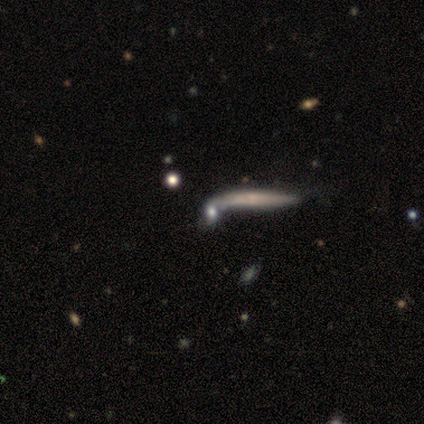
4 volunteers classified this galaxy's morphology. Smooth or featured?
  - featured or disk: 75% *
  - smooth: 25%
  - star or artifact: 0%
Edge-on disk?
  - yes: 67% *
  - no: 33%
Edge-on bulge?
  - rounded: 100% *
  - boxy: 0%
  - none: 0%
Merging?
  - none: 50% *
  - minor disturbance: 25%
  - merger: 25%
  - major disturbance: 0%